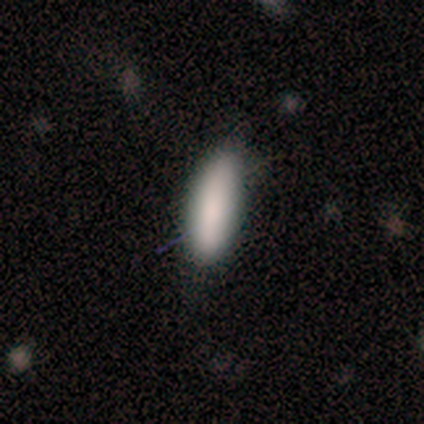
A smooth galaxy with no disk features (80%) that is in between round and cigar-shaped (75%). Merging: none (80%).